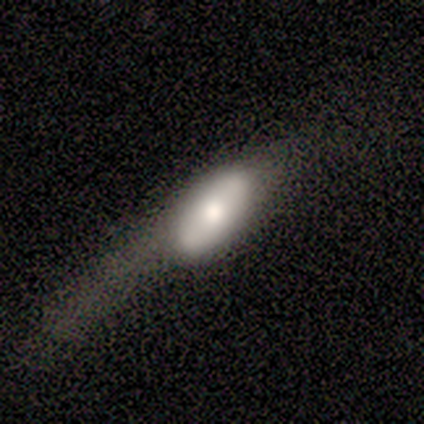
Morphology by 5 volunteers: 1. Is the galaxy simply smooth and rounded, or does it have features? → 60% featured or disk, 40% smooth, 0% star or artifact.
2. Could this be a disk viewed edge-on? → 67% no, 33% yes.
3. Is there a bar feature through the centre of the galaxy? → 100% no, 0% strong, 0% weak.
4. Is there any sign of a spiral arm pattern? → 100% no, 0% yes.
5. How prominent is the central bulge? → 50% large (tied), 50% moderate (tied), 0% dominant, 0% small, 0% none.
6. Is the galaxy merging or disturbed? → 60% major disturbance, 20% minor disturbance, 20% merger, 0% none.